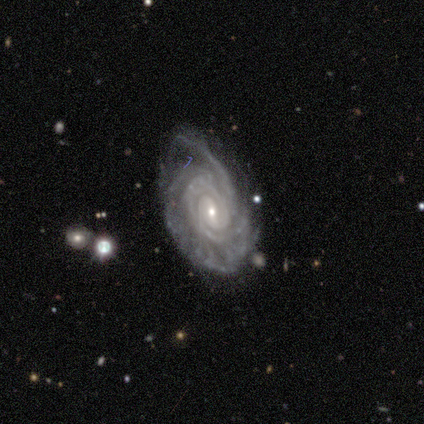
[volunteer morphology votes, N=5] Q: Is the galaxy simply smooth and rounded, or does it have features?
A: featured or disk — 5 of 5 (100%).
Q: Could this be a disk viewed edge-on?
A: no — 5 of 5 (100%).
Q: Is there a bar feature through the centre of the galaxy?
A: no — 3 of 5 (60%).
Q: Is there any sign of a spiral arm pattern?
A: yes — 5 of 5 (100%).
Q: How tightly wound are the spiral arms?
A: tight — 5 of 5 (100%).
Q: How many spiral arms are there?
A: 4 — 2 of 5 (40%).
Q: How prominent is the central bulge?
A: small — 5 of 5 (100%).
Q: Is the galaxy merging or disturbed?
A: none — 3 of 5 (60%).